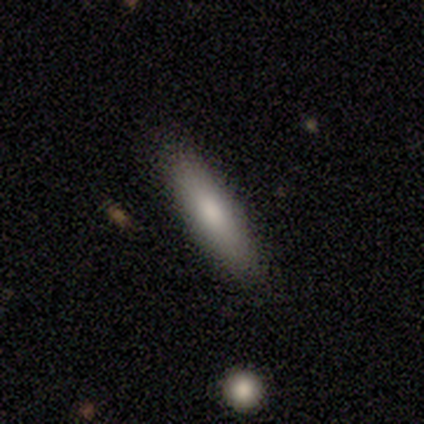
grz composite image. It shows a smooth galaxy with no disk features (100%) that is in between round and cigar-shaped (60%). Merging: none (100%).